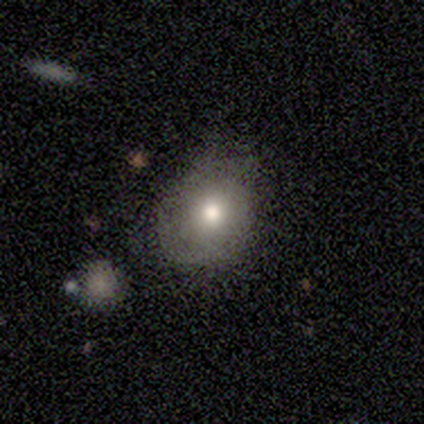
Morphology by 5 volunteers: This is likely a featured or disk galaxy (60%). It is clearly not viewed edge-on (100%). Bar: clearly no (100%). Spiral arm pattern: likely no (67%). Central bulge: clearly moderate (100%). Merging: likely none (60%).